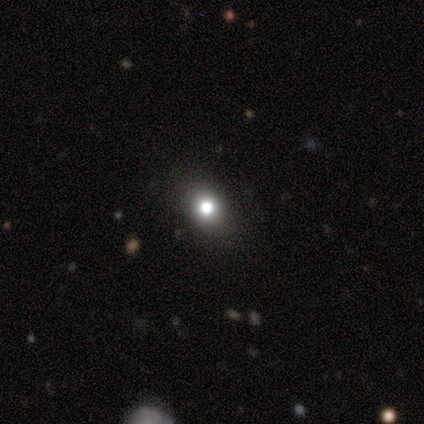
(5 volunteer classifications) This is clearly a smooth galaxy (80%). How rounded: possibly round (50%, tied with in between). Merging: clearly none (100%).